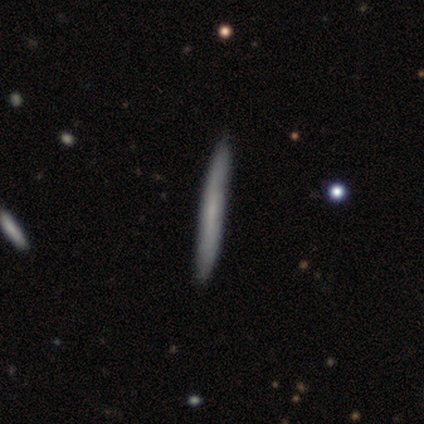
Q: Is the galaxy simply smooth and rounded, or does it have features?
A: smooth — 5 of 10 (50%, tied with featured or disk).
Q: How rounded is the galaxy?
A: cigar-shaped — 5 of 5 (100%).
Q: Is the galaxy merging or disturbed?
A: none — 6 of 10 (60%).